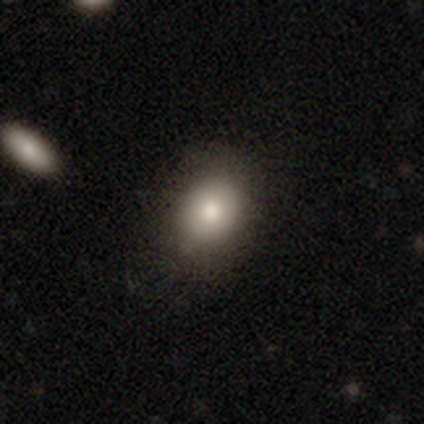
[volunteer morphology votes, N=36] A smooth galaxy with no disk features (78%) that is round (50%, tied with in between). Merging: none (77%).